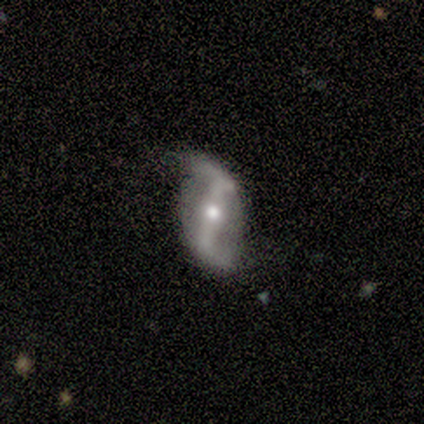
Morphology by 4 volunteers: Smooth or featured? 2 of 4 (50%) said featured or disk. Edge-on disk? 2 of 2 (100%) said no. Bar? 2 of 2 (100%) said strong. Spiral arms? 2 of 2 (100%) said yes. Spiral winding? 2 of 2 (100%) said loose. Spiral arm count? 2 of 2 (100%) said 2. Bulge size? 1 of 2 (50%, tied with small) said moderate. Merging? 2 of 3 (67%) said none.